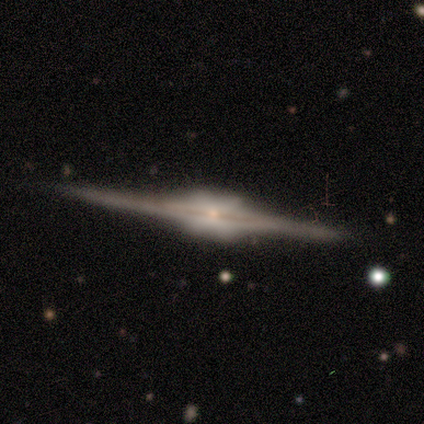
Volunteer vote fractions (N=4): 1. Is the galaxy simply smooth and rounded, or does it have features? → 100% featured or disk, 0% smooth, 0% star or artifact.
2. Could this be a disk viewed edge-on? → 100% yes, 0% no.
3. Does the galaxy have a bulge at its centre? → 50% boxy (tied), 50% rounded (tied), 0% none.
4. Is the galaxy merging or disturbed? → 100% none, 0% minor disturbance, 0% major disturbance, 0% merger.